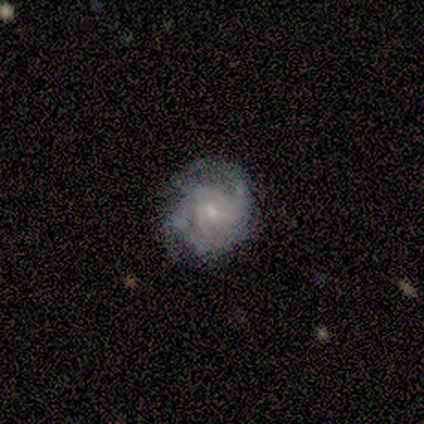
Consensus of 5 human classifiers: Smooth or featured: featured or disk — 100%
Edge-on disk: no — 100%
Bar: no — 60% (weak — 40%)
Spiral arms: yes — 100%
Spiral winding: tight — 60% (medium — 40%)
Spiral arm count: can't tell — 60% (2 — 20%)
Bulge size: small — 60% (moderate — 20%)
Merging: none — 60% (minor disturbance — 40%)